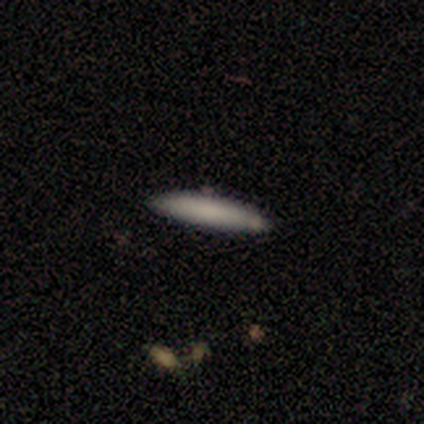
smooth 100%, featured or disk 0%, star or artifact 0%. Down the decision tree: how rounded — cigar-shaped (100%); merging — none (100%).